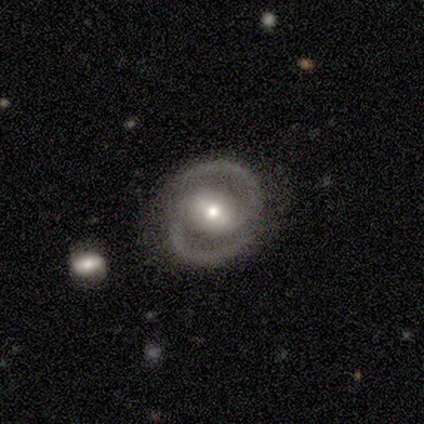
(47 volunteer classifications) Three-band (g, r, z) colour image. It shows a featured or disk galaxy (87%) with a strong bar (40%, tied with weak), 2 (100%) medium (56%) spiral arms (98%) and a moderate central bulge (62%). Merging: none (86%).